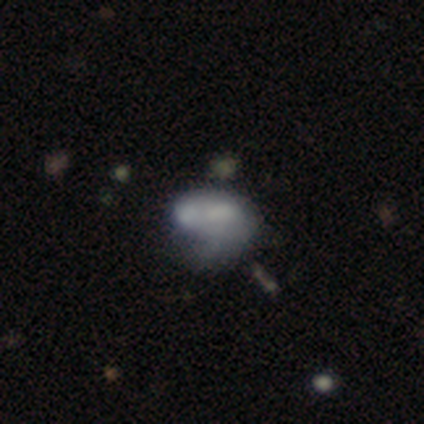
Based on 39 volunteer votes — smooth-or-featured: smooth: 56% | featured or disk: 38% | star or artifact: 5%
  how-rounded: in between: 86% | round: 14% | cigar-shaped: 0%
  merging: minor disturbance: 41% | merger: 35% | major disturbance: 14% | none: 11%